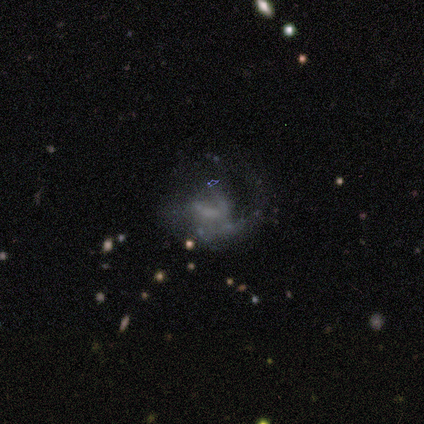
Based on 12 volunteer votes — This is clearly a featured or disk galaxy (83%). It is clearly not viewed edge-on (100%). Bar: likely no (70%). Spiral arm pattern: likely yes (70%). Spiral arm count: marginally 1 (43%). Spiral winding: marginally tight (43%). Central bulge: marginally none (40%). Merging: possibly none (45%).